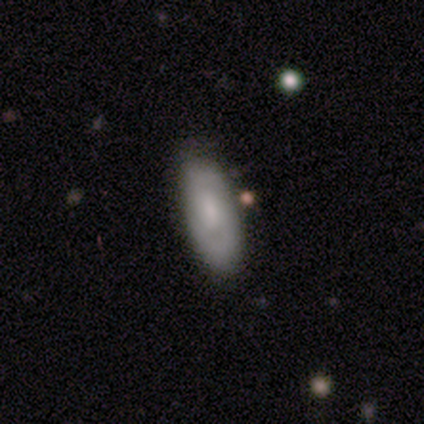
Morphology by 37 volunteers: Q: Smooth or featured?
A: featured or disk (54%); runner-up: smooth (46%)
Q: Edge-on disk?
A: no (95%); runner-up: yes (5%)
Q: Bar?
A: no (63%); runner-up: weak (26%)
Q: Spiral arms?
A: yes (68%); runner-up: no (32%)
Q: Spiral winding?
A: medium (46%); runner-up: tight (31%)
Q: Spiral arm count?
A: 2 (100%)
Q: Bulge size?
A: moderate (37%); runner-up: small (26%)
Q: Merging?
A: none (81%); runner-up: minor disturbance (11%)